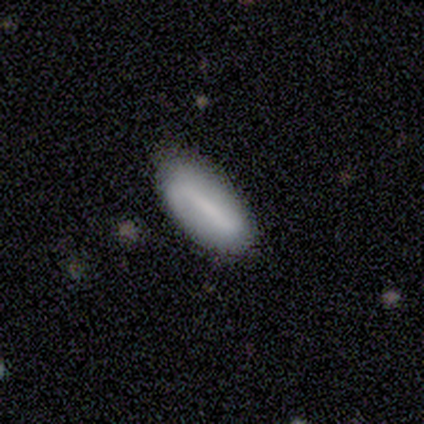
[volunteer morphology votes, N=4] type=smooth (50%, tied with featured or disk); roundness=in between (100%); merging=none (50%).